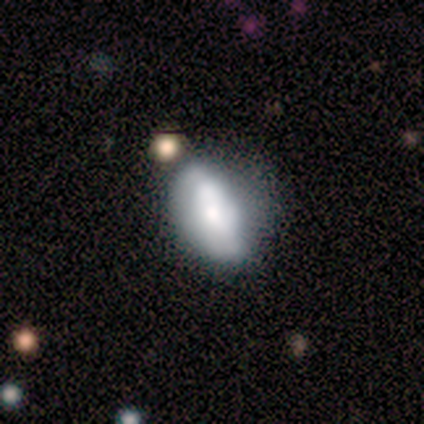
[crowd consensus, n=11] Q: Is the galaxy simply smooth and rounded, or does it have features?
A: smooth — 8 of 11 (73%).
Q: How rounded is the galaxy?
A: in between — 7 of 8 (88%).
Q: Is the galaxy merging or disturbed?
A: minor disturbance — 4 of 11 (36%).